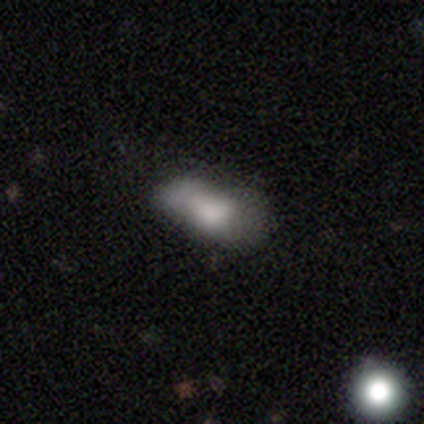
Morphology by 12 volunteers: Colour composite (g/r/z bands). It shows a smooth galaxy with no disk features (75%) that is in between round and cigar-shaped (100%). Merging: major disturbance (36%).